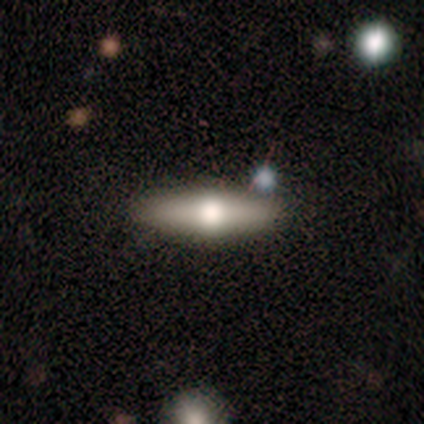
featured or disk 64%, smooth 36%, star or artifact 0%. Down the decision tree: edge-on disk — yes (100%); edge-on bulge — rounded (100%); merging — none (93%).